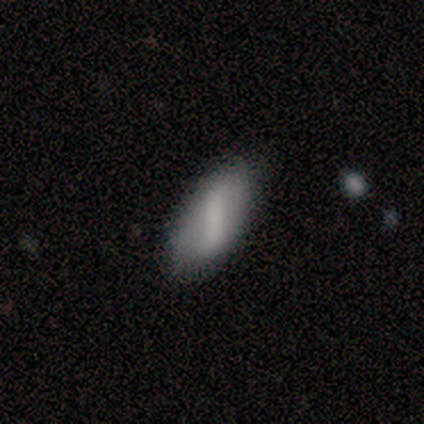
This appears to be a smooth galaxy with no disk features (49%) that is in between round and cigar-shaped (95%). Merging: none (83%).